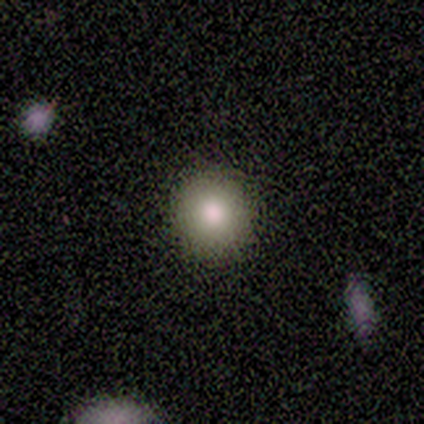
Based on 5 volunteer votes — Smooth or featured? smooth (60%)
How rounded? round (100%)
Merging? none (100%)